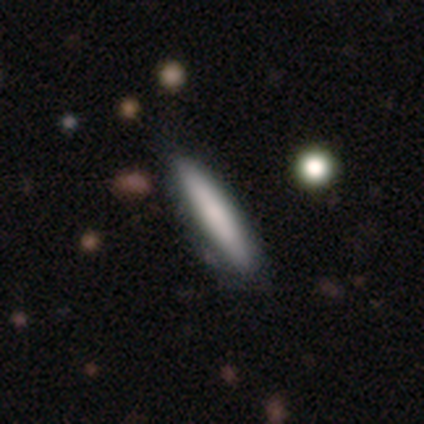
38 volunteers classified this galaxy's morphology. Overall: smooth (79%). How rounded: cigar-shaped (83%). Merging: none (57%).